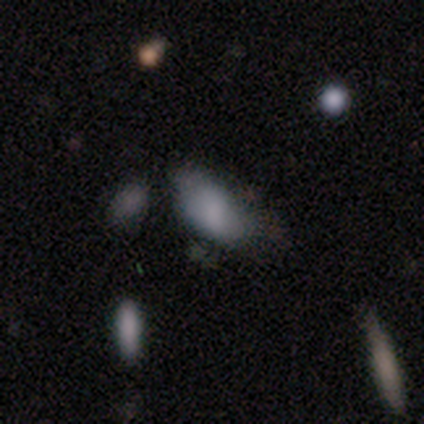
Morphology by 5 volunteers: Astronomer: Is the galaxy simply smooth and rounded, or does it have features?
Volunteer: smooth — 80%.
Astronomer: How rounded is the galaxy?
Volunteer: in between — 100%.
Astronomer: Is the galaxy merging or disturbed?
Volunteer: minor disturbance — 75%.